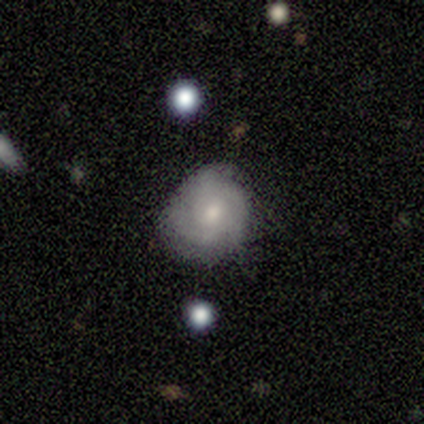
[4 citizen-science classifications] Q: Smooth or featured?
A: smooth (50%); tied with: featured or disk (50%)
Q: How rounded?
A: round (50%); tied with: in between (50%)
Q: Merging?
A: none (100%)